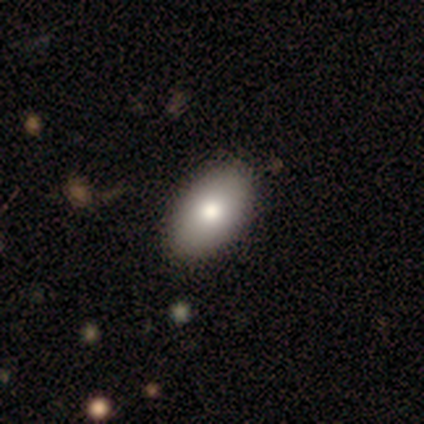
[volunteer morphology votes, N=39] This is clearly a smooth galaxy (90%). How rounded: clearly in between (100%). Merging: likely none (67%).